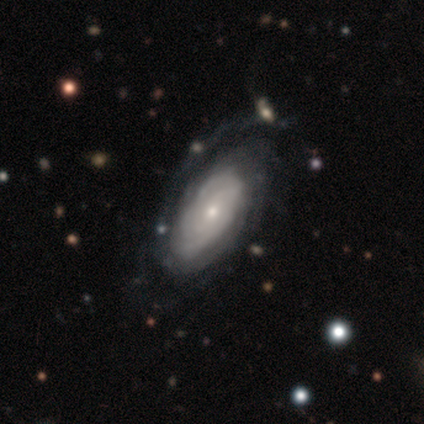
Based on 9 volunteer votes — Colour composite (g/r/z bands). It shows a featured or disk galaxy (100%) with no bar (100%), tight (100%) spiral arms (100%) and a small central bulge (78%). Merging: none (44%).